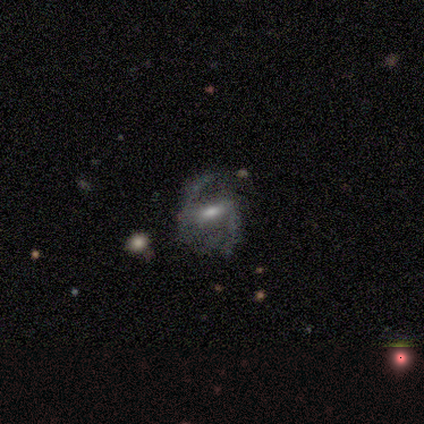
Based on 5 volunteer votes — A featured or disk galaxy (100%) with a weak bar (100%), 2 (67%) medium (67%) spiral arms (75%) and a moderate central bulge (75%). Merging: none (60%).